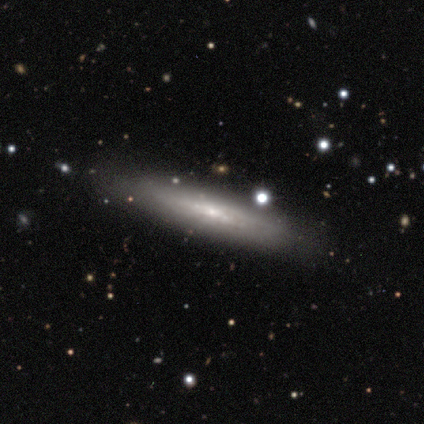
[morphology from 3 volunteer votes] smooth_or_featured: smooth (p=0.67) [alt: featured or disk p=0.33]
how_rounded: cigar-shaped (p=1.00)
merging: none (p=0.67) [alt: minor disturbance p=0.33]